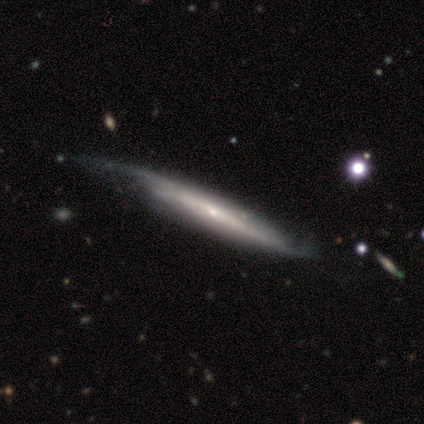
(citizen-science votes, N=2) Morphology: type=featured or disk (100%); edge-on=yes (100%); edge-on bulge=none (100%); merging=none (50%, tied with major disturbance).